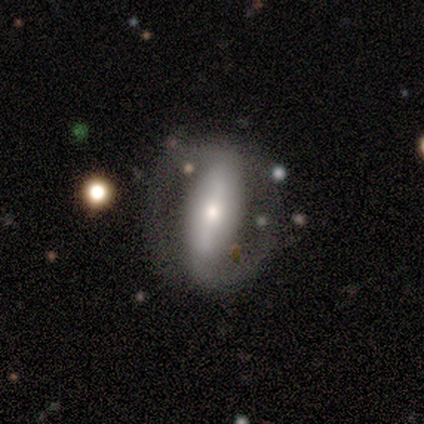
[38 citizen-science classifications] smooth-or-featured: featured or disk: 74% | smooth: 16% | star or artifact: 11%
  disk-edge-on: no: 93% | yes: 7%
    bar: strong: 46% | weak: 31% | no: 23%
    has-spiral-arms: yes: 65% | no: 35%
      spiral-winding: medium: 41% | loose: 35% | tight: 24%
      spiral-arm-count: 2: 100% | 1: 0% | 3: 0% | 4: 0% | more than 4: 0% | can't tell: 0%
    bulge-size: moderate: 54% | small: 38% | dominant: 4% | none: 4% | large: 0%
  merging: none: 59% | major disturbance: 24% | minor disturbance: 15% | merger: 3%